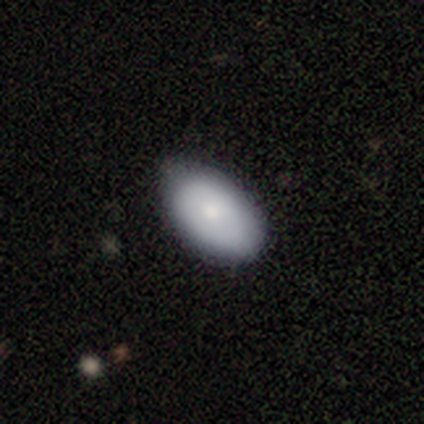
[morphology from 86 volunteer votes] This is clearly a smooth galaxy (81%). How rounded: clearly in between (93%). Merging: likely none (71%).